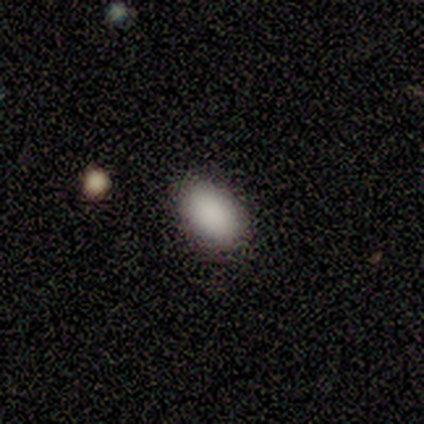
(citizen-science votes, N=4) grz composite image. It shows a smooth galaxy with no disk features (75%) that is in between round and cigar-shaped (100%). Merging: none (100%).